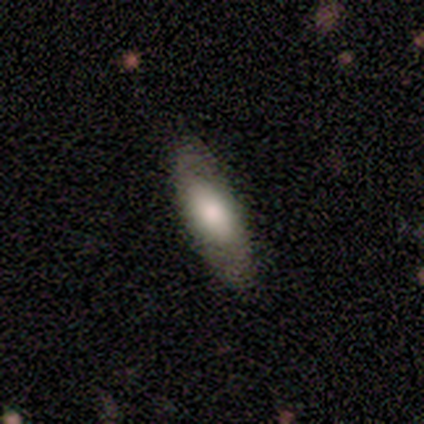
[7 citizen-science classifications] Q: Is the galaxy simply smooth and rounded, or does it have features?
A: smooth — 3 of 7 (43%, tied with featured or disk).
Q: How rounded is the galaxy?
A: cigar-shaped — 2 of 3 (67%).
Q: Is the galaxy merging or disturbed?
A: none — 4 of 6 (67%).